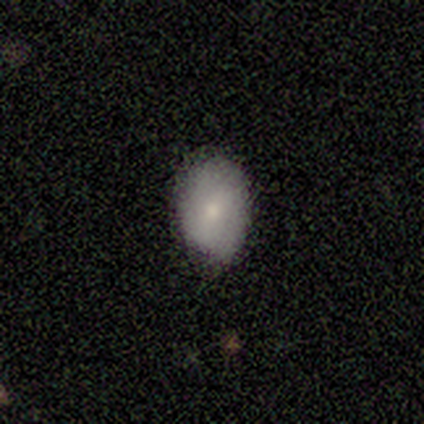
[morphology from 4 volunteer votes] smooth 75%, featured or disk 25%, star or artifact 0%. Down the decision tree: how rounded — in between (100%); merging — none (75%).